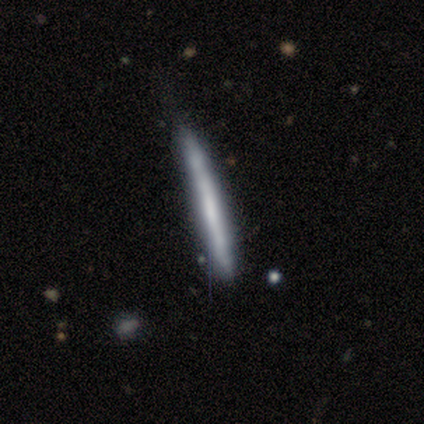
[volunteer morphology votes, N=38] smooth_or_featured: smooth (p=0.50) [alt: featured or disk p=0.47]
how_rounded: cigar-shaped (p=1.00)
merging: none (p=0.78) [alt: minor disturbance p=0.16]